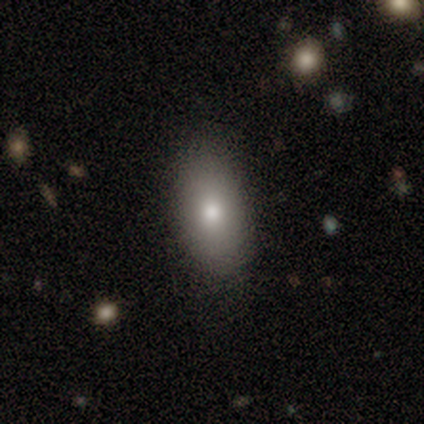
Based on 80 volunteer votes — Smooth or featured?
  - smooth: 88% *
  - featured or disk: 8%
  - star or artifact: 5%
How rounded?
  - in between: 94% *
  - round: 4%
  - cigar-shaped: 1%
Merging?
  - none: 45% *
  - minor disturbance: 5%
  - major disturbance: 1%
  - merger: 0%